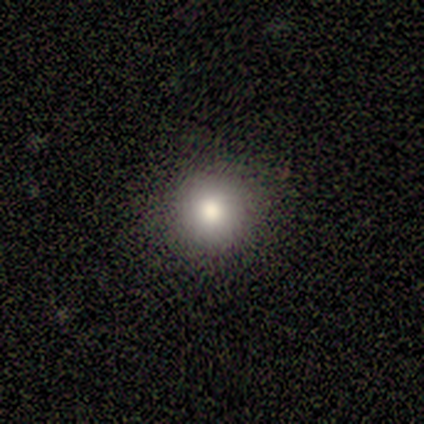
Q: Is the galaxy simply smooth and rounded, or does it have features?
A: smooth — 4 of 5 (80%).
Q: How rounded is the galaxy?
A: round — 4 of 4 (100%).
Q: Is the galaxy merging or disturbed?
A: none — 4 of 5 (80%).